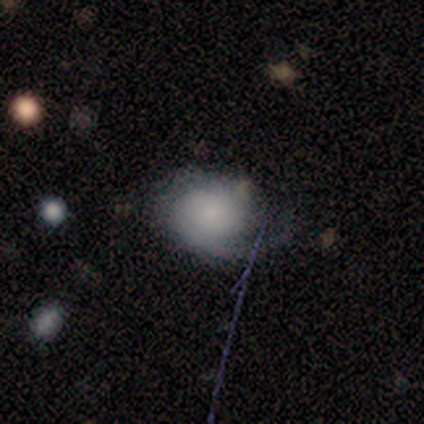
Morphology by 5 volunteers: Q: Smooth or featured?
A: smooth (80%); runner-up: featured or disk (20%)
Q: How rounded?
A: round (50%); tied with: in between (50%)
Q: Merging?
A: none (80%); runner-up: major disturbance (20%)